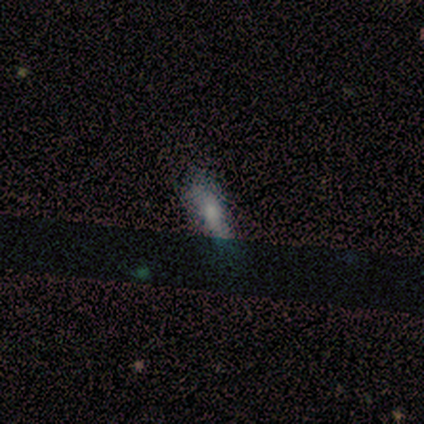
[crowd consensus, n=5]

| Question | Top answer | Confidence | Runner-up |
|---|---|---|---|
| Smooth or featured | smooth | 80% | star or artifact (20%) |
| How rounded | cigar-shaped | 75% | in between (25%) |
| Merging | none | 50% | tied: minor disturbance (50%) |